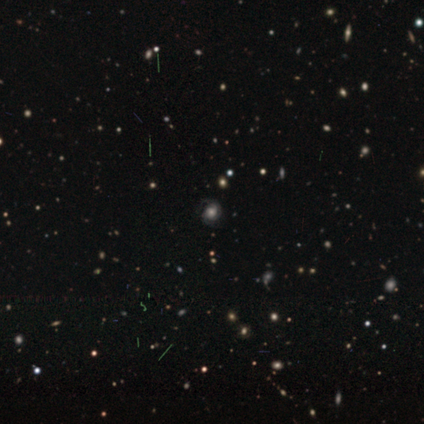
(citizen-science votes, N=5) Volunteers were most divided on "spiral winding" (2-way tie): tight: 50%, medium: 50%, loose: 0%. More confident: edge-on disk — no (100%); bar — no (100%); spiral arms — yes (100%); merging — none (100%); smooth or featured — featured or disk (80%); spiral arm count — can't tell (50%); bulge size — large (50%).